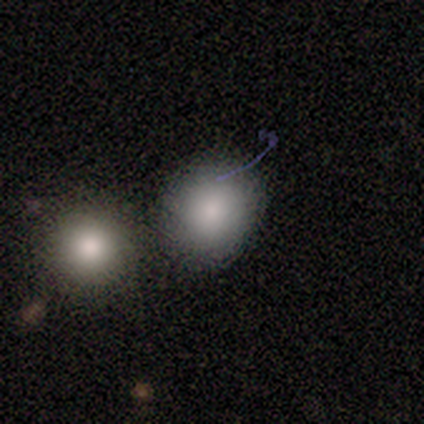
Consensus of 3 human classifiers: smooth-or-featured: smooth: 100% | featured or disk: 0% | star or artifact: 0%
  how-rounded: round: 67% | in between: 33% | cigar-shaped: 0%
  merging: none: 100% | minor disturbance: 0% | major disturbance: 0% | merger: 0%